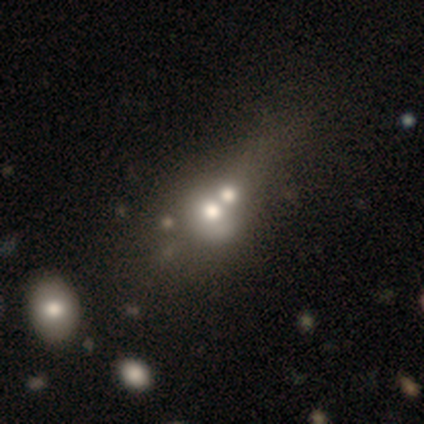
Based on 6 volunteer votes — This is likely a smooth galaxy (67%). How rounded: possibly round (50%, tied with in between). Merging: clearly merger (80%).